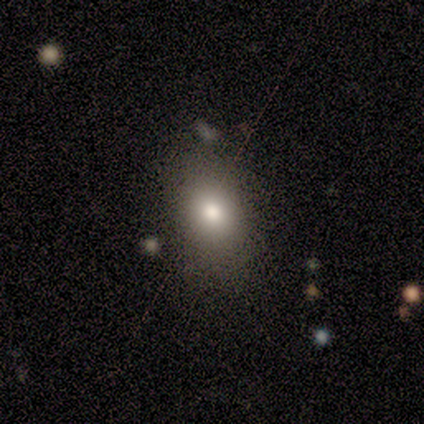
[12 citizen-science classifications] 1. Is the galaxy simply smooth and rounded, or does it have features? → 67% smooth, 25% star or artifact, 8% featured or disk.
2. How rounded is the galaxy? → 75% in between, 25% round, 0% cigar-shaped.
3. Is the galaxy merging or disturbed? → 78% none, 22% minor disturbance, 0% major disturbance, 0% merger.